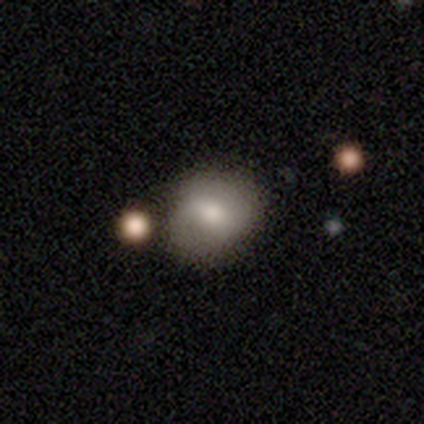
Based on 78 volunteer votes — Smooth or featured? smooth (64%)
How rounded? round (66%)
Merging? none (38%)